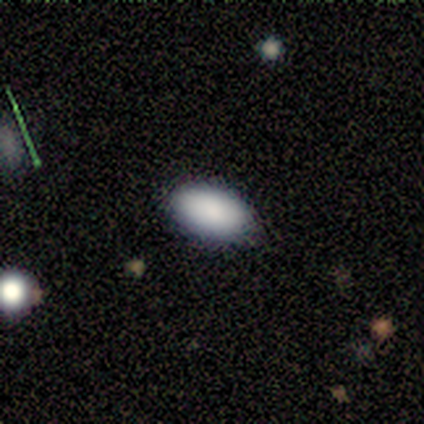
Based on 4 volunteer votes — Smooth or featured?
  - smooth: 100% *
  - featured or disk: 0%
  - star or artifact: 0%
How rounded?
  - in between: 100% *
  - round: 0%
  - cigar-shaped: 0%
Merging?
  - none: 100% *
  - minor disturbance: 0%
  - major disturbance: 0%
  - merger: 0%